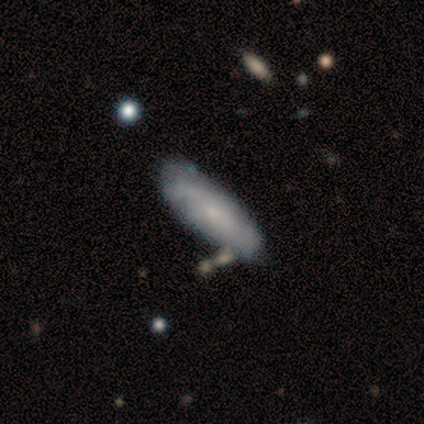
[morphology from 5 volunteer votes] This is likely a smooth galaxy (60%). How rounded: likely in between (67%). Merging: clearly none (80%).